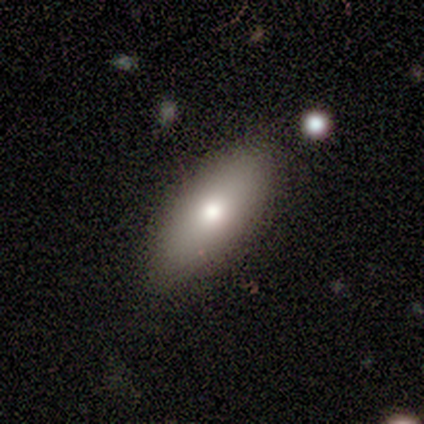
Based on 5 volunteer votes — This is likely a featured or disk galaxy (60%). It is clearly not viewed edge-on (100%). Bar: clearly no (100%). Spiral arm pattern: clearly no (100%). Central bulge: likely moderate (67%). Merging: clearly none (100%).